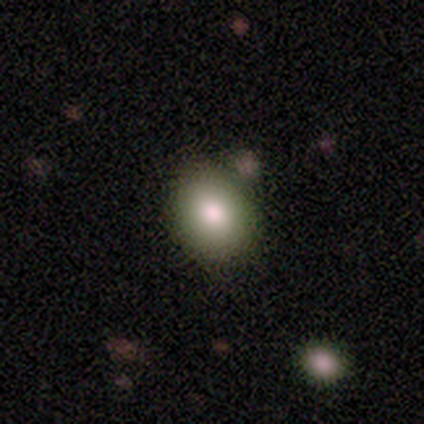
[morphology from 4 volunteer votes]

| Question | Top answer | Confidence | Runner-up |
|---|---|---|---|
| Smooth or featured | smooth | 100% | — |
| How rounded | round | 75% | in between (25%) |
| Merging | none | 100% | — |